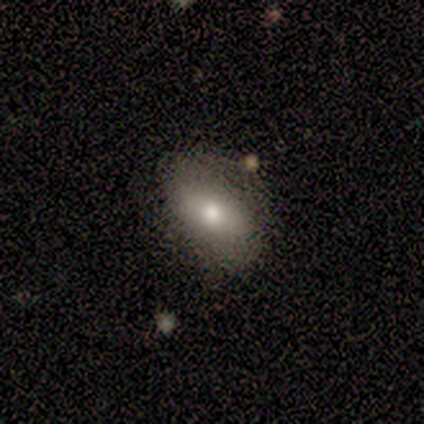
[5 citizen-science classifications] Smooth or featured? 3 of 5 (60%) said featured or disk. Edge-on disk? 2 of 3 (67%) said no. Bar? 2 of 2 (100%) said weak. Spiral arms? 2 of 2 (100%) said yes. Spiral winding? 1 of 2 (50%, tied with medium) said tight. Spiral arm count? 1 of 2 (50%, tied with 2) said 1. Bulge size? 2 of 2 (100%) said moderate. Merging? 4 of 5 (80%) said none.